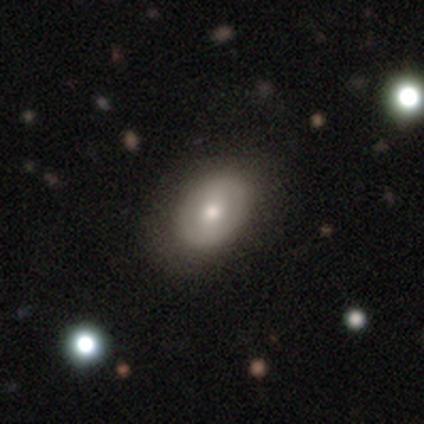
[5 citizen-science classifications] smooth_or_featured: smooth (p=0.60) [alt: featured or disk p=0.40]
how_rounded: in between (p=1.00)
merging: none (p=1.00)